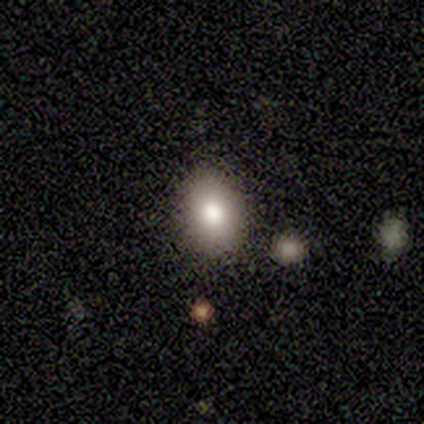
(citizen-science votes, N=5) smooth-or-featured: smooth: 100% | featured or disk: 0% | star or artifact: 0%
  how-rounded: round: 60% | in between: 40% | cigar-shaped: 0%
  merging: none: 80% | major disturbance: 20% | minor disturbance: 0% | merger: 0%